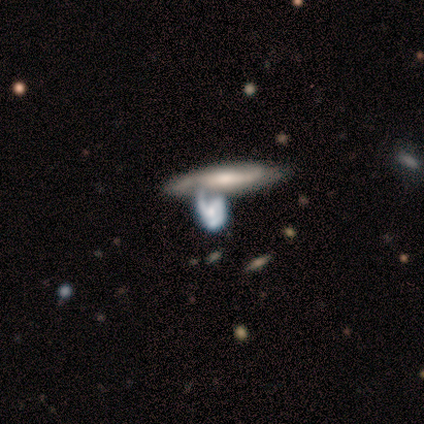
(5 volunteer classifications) Smooth or featured? featured or disk (80%)
Edge-on disk? yes (50%, tied with no)
Edge-on bulge? boxy (50%, tied with none)
Merging? none (40%, tied with merger)